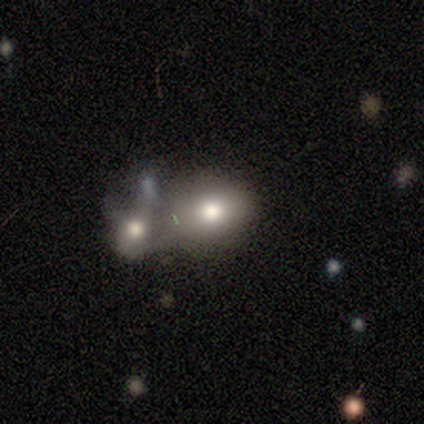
smooth 75%, star or artifact 25%, featured or disk 0%. Down the decision tree: how rounded — round (100%); merging — merger (67%).